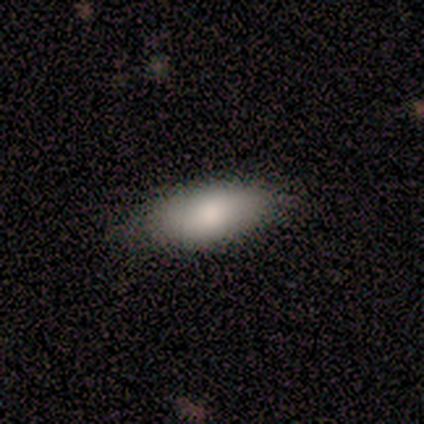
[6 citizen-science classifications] A smooth galaxy with no disk features (100%) that is in between round and cigar-shaped (83%).

Vote fractions:
- Smooth or featured? smooth: 100% / featured or disk: 0% / star or artifact: 0%
- How rounded? in between: 83% / cigar-shaped: 17% / round: 0%
- Merging? none: 83% / major disturbance: 17% / minor disturbance: 0% / merger: 0%